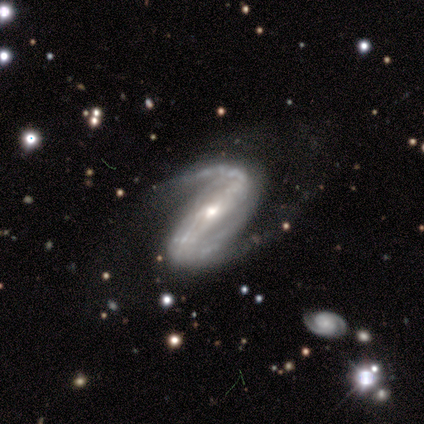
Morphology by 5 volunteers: smooth-or-featured: featured or disk: 100% | smooth: 0% | star or artifact: 0%
  disk-edge-on: no: 80% | yes: 20%
    bar: strong: 50% | weak: 25% | no: 25%
    has-spiral-arms: yes: 100% | no: 0%
      spiral-winding: loose: 50% | tight: 25% | medium: 25%
      spiral-arm-count: 2: 100% | 1: 0% | 3: 0% | 4: 0% | more than 4: 0% | can't tell: 0%
    bulge-size: moderate: 75% | small: 25% | dominant: 0% | large: 0% | none: 0%
  merging: none: 40% (tied) | major disturbance: 40% (tied) | minor disturbance: 20% | merger: 0%